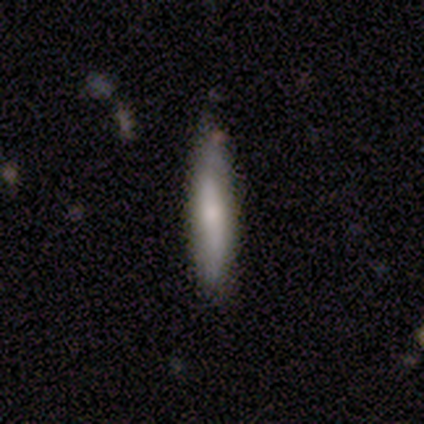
A smooth galaxy with no disk features (80%) that is cigar-shaped (75%).

Vote fractions:
- Smooth or featured? smooth: 80% / featured or disk: 20% / star or artifact: 0%
- How rounded? cigar-shaped: 75% / in between: 25% / round: 0%
- Merging? none: 80% / minor disturbance: 20% / major disturbance: 0% / merger: 0%